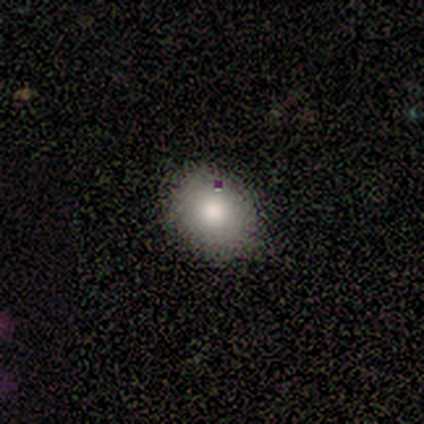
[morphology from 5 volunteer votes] A smooth galaxy with no disk features (100%) that is in between round and cigar-shaped (60%).

Vote fractions:
- Smooth or featured? smooth: 100% / featured or disk: 0% / star or artifact: 0%
- How rounded? in between: 60% / round: 40% / cigar-shaped: 0%
- Merging? none: 80% / minor disturbance: 20% / major disturbance: 0% / merger: 0%